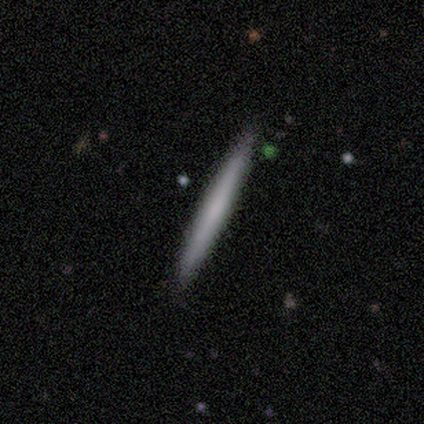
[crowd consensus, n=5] smooth 60%, featured or disk 20%, star or artifact 20%. Down the decision tree: how rounded — cigar-shaped (100%); merging — none (75%).